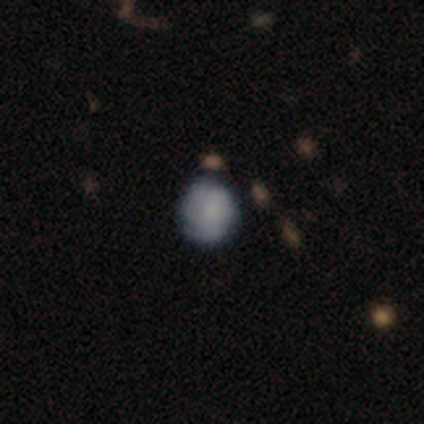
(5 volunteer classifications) Volunteers were most divided on "spiral winding" (2-way tie): tight: 50%, loose: 50%, medium: 0%; "spiral arm count" (2-way tie): 1: 50%, can't tell: 50%, 2: 0%, 3: 0%, 4: 0%, more than 4: 0%; "bulge size" (3-way tie): large: 33%, moderate: 33%, none: 33%, dominant: 0%, small: 0%. More confident: edge-on disk — no (100%); bar — no (67%); spiral arms — yes (67%); smooth or featured — featured or disk (60%); merging — none (50%).